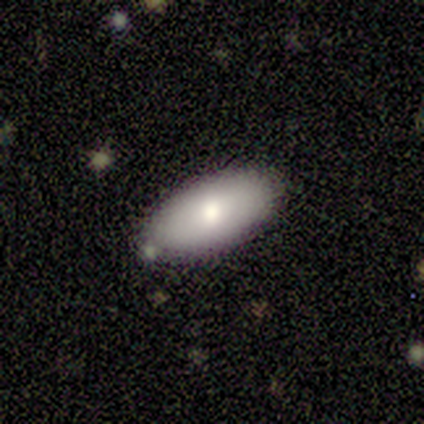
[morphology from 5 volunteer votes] A smooth galaxy with no disk features (100%) that is in between round and cigar-shaped (80%).

Vote fractions:
- Smooth or featured? smooth: 100% / featured or disk: 0% / star or artifact: 0%
- How rounded? in between: 80% / cigar-shaped: 20% / round: 0%
- Merging? none: 100% / minor disturbance: 0% / major disturbance: 0% / merger: 0%